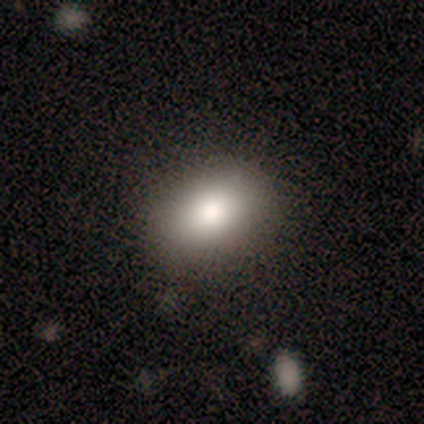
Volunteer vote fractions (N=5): Smooth or featured? 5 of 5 (100%) said smooth. How rounded? 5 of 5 (100%) said in between. Merging? 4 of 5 (80%) said none.